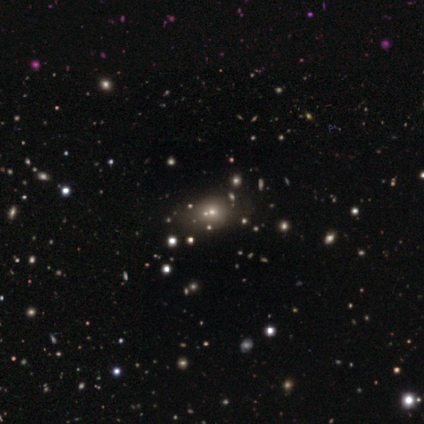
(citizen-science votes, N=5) smooth-or-featured: smooth: 60% | featured or disk: 40% | star or artifact: 0%
  how-rounded: round: 67% | in between: 33% | cigar-shaped: 0%
  merging: none: 40% (tied) | merger: 40% (tied) | minor disturbance: 20% | major disturbance: 0%